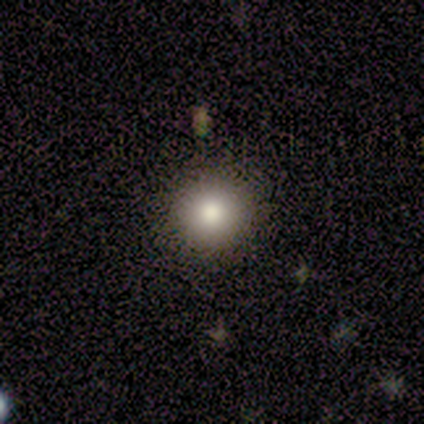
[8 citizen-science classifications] Smooth or featured?
  - smooth: 100% *
  - featured or disk: 0%
  - star or artifact: 0%
How rounded?
  - round: 100% *
  - in between: 0%
  - cigar-shaped: 0%
Merging?
  - none: 100% *
  - minor disturbance: 0%
  - major disturbance: 0%
  - merger: 0%